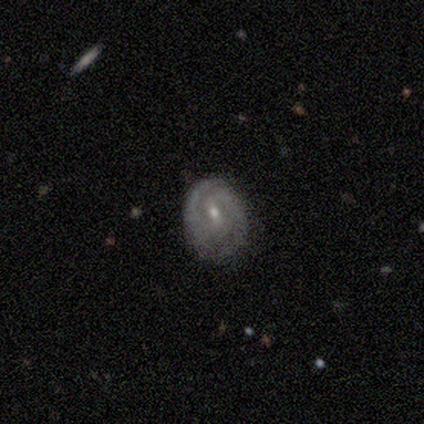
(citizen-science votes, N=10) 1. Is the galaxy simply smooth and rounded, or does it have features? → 90% featured or disk, 10% smooth, 0% star or artifact.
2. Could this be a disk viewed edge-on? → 100% no, 0% yes.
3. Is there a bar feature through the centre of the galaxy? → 56% weak, 33% no, 11% strong.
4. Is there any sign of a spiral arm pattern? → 67% yes, 33% no.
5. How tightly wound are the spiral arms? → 67% tight, 33% medium, 0% loose.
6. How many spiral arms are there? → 100% 2, 0% 1, 0% 3, 0% 4, 0% more than 4, 0% can't tell.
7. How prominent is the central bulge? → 67% moderate, 33% small, 0% dominant, 0% large, 0% none.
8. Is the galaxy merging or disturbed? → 70% none, 30% minor disturbance, 0% major disturbance, 0% merger.